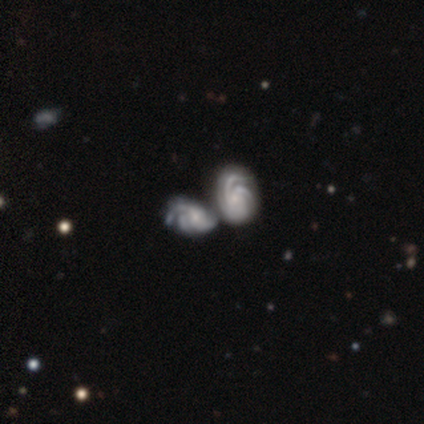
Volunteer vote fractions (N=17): A featured or disk galaxy (88%) with no bar (87%), 3 (57%) tight (64%) spiral arms (93%) and a small central bulge (53%). Merging: merger (76%).